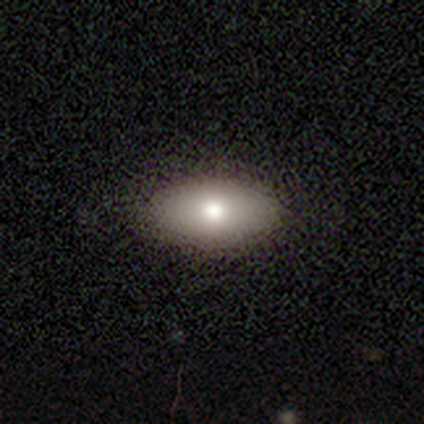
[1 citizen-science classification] Smooth or featured? 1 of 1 (100%) said smooth. How rounded? 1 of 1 (100%) said in between. Merging? 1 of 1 (100%) said none.